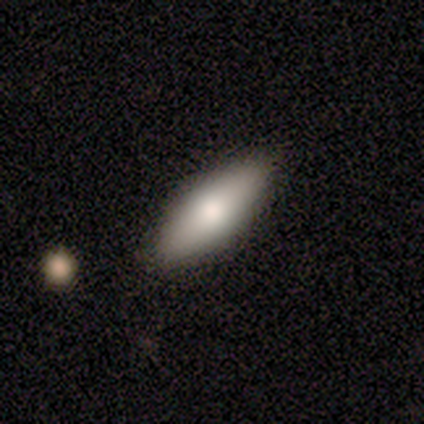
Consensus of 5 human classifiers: A smooth galaxy with no disk features (60%) that is in between round and cigar-shaped (100%).

Vote fractions:
- Smooth or featured? smooth: 60% / featured or disk: 20% / star or artifact: 20%
- How rounded? in between: 100% / round: 0% / cigar-shaped: 0%
- Merging? none: 75% / minor disturbance: 25% / major disturbance: 0% / merger: 0%